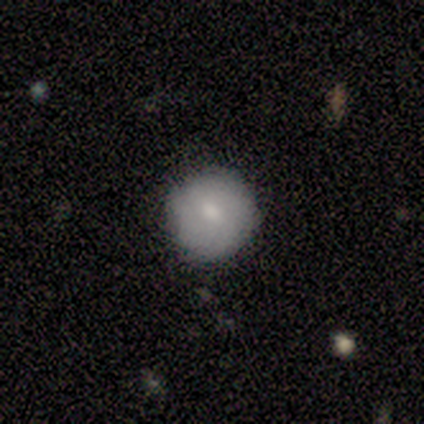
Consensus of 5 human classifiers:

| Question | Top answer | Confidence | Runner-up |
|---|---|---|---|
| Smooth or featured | smooth | 80% | star or artifact (20%) |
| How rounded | round | 100% | — |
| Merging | none | 100% | — |